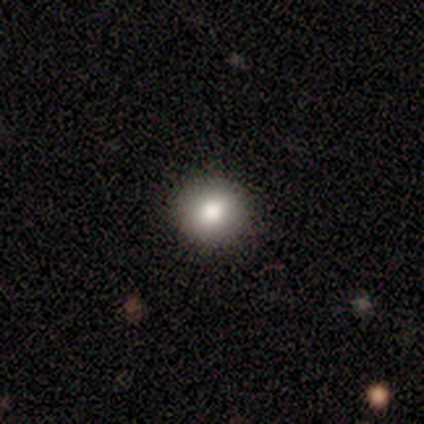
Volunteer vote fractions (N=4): Q: Smooth or featured?
A: smooth (50%); runner-up: featured or disk (25%)
Q: How rounded?
A: round (100%)
Q: Merging?
A: none (100%)